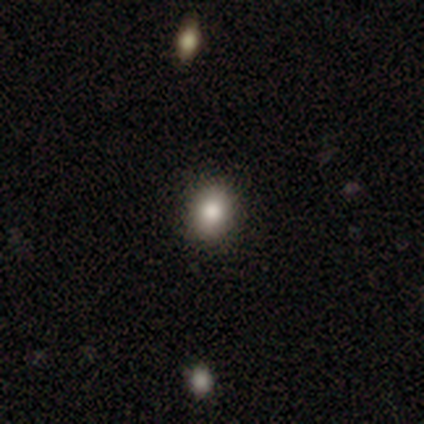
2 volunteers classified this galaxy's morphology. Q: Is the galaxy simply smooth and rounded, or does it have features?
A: star or artifact — 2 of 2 (100%).